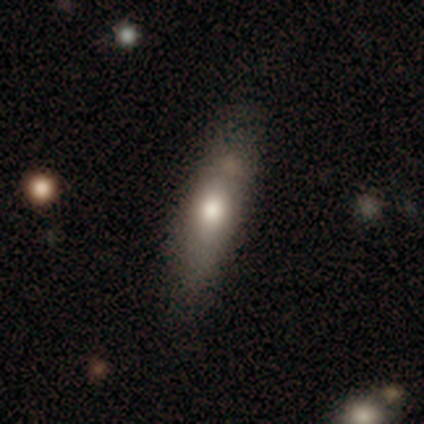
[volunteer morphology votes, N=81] Volunteers were most divided on "how rounded": cigar-shaped: 60%, in between: 40%, round: 0%. Remaining: smooth or featured — smooth (70%); merging — none (39%).